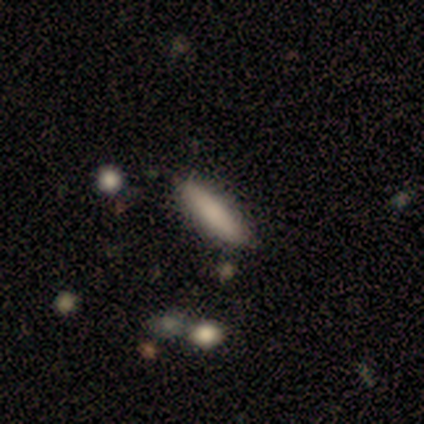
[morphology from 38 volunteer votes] A smooth galaxy with no disk features (66%) that is cigar-shaped (52%). Merging: none (76%).